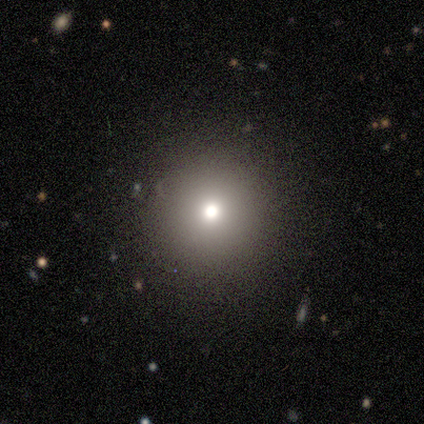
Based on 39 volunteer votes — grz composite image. It shows a smooth galaxy with no disk features (77%) that is round (97%). Merging: none (91%).